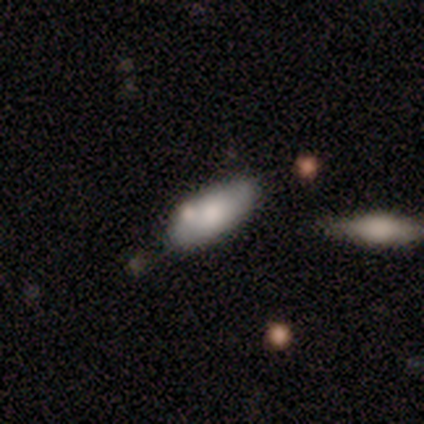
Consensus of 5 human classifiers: Smooth or featured: smooth — 100%
How rounded: in between — 100%
Merging: none — 80% (minor disturbance — 20%)